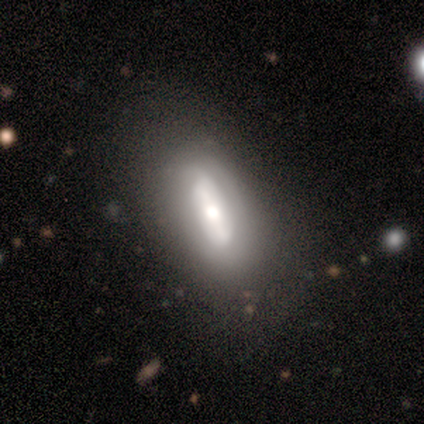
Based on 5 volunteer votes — featured or disk 80%, smooth 20%, star or artifact 0%. Down the decision tree: edge-on disk — yes (75%); edge-on bulge — rounded (100%); merging — none (80%).